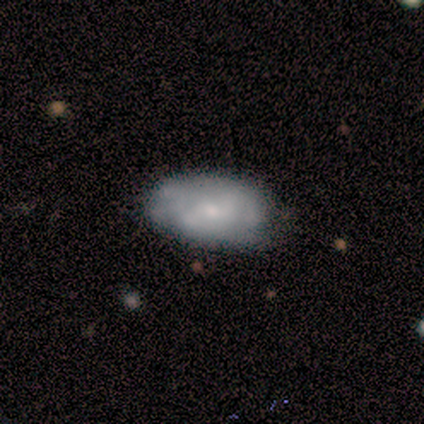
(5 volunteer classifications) This appears to be a smooth galaxy with no disk features (80%) that is in between round and cigar-shaped (75%). Merging: minor disturbance (60%).